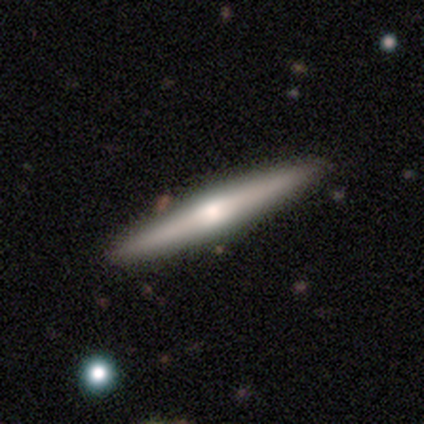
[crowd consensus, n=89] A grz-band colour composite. It shows a featured or disk galaxy (66%) viewed edge-on (98%) with a rounded central bulge (86%). Merging: none (88%).